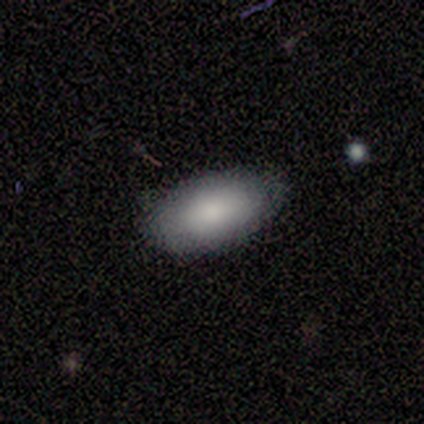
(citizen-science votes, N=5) Smooth or featured? 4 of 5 (80%) said smooth. How rounded? 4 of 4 (100%) said in between. Merging? 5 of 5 (100%) said none.